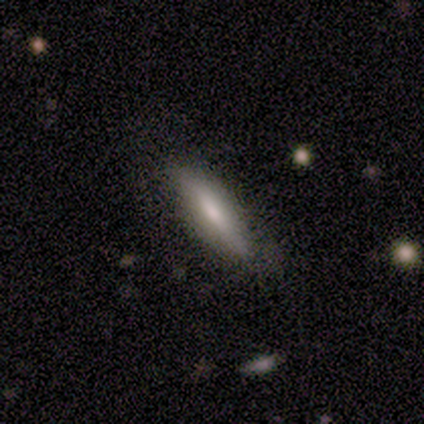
Volunteers were most divided on "how rounded": cigar-shaped: 55%, in between: 42%, round: 3%. More confident: merging — none (64%); smooth or featured — smooth (60%).